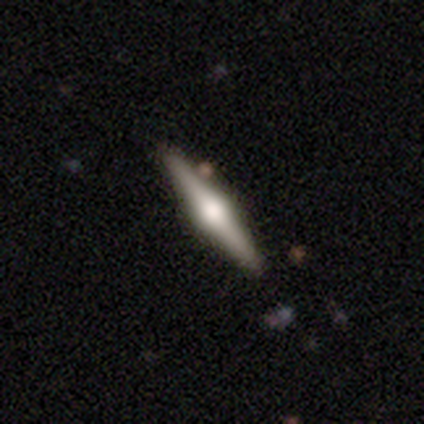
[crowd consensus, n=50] smooth-or-featured: featured or disk: 72% | smooth: 26% | star or artifact: 2%
  disk-edge-on: yes: 100% | no: 0%
    edge-on-bulge: rounded: 100% | boxy: 0% | none: 0%
  merging: none: 94% | minor disturbance: 6% | major disturbance: 0% | merger: 0%